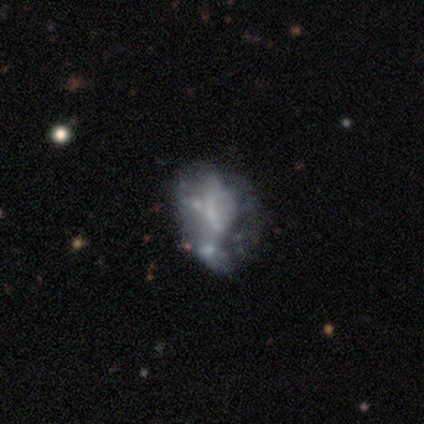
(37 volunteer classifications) Morphology: type=featured or disk (92%); edge-on=no (100%); bar=no (76%); spiral arms=no (88%); bulge=none (59%); merging=none (26%, tied with major disturbance).